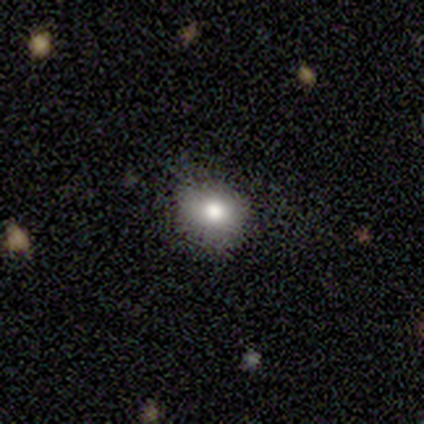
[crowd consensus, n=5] smooth-or-featured: smooth: 80% | star or artifact: 20% | featured or disk: 0%
  how-rounded: round: 75% | in between: 25% | cigar-shaped: 0%
  merging: none: 75% | minor disturbance: 25% | major disturbance: 0% | merger: 0%